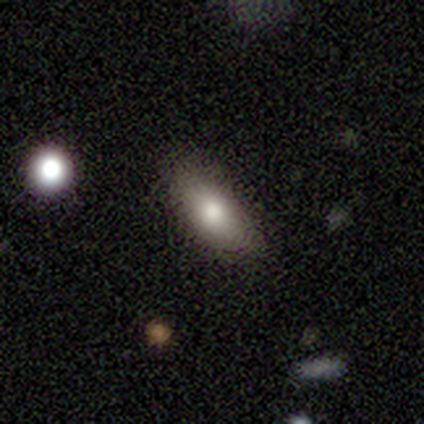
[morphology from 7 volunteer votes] This is clearly a smooth galaxy (86%). How rounded: clearly in between (83%). Merging: likely none (71%).